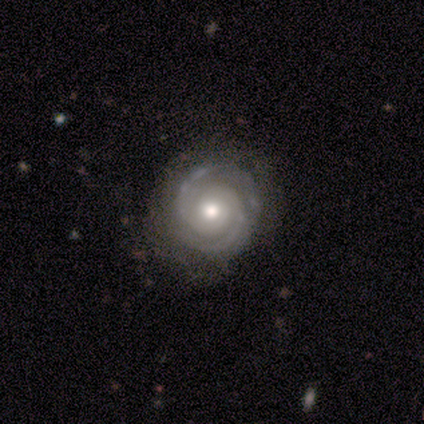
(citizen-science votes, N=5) Overall: featured or disk (80%). Edge-on disk: no (100%). Bar: no (100%). Spiral arms: yes (100%). Spiral arm count: 2 (100%). Spiral winding: tight (75%). Bulge size: moderate (100%). Merging: none (100%).